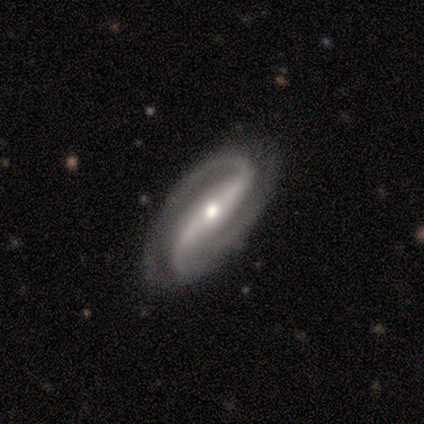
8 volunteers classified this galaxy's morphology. Smooth or featured? 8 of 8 (100%) said featured or disk. Edge-on disk? 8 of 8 (100%) said no. Bar? 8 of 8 (100%) said strong. Spiral arms? 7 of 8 (88%) said yes. Spiral winding? 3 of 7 (43%) said medium. Spiral arm count? 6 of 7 (86%) said 2. Bulge size? 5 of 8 (62%) said small. Merging? 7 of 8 (88%) said none.